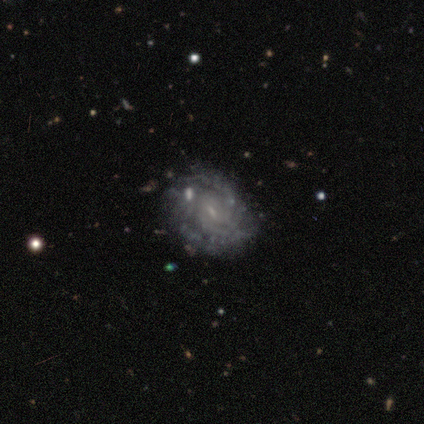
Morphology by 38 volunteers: Volunteers were most divided on "bar": no: 52%, weak: 39%, strong: 9%. More confident: edge-on disk — no (100%); smooth or featured — featured or disk (87%); spiral arms — yes (82%); bulge size — small (70%); merging — none (64%); spiral winding — tight (63%); spiral arm count — can't tell (56%).